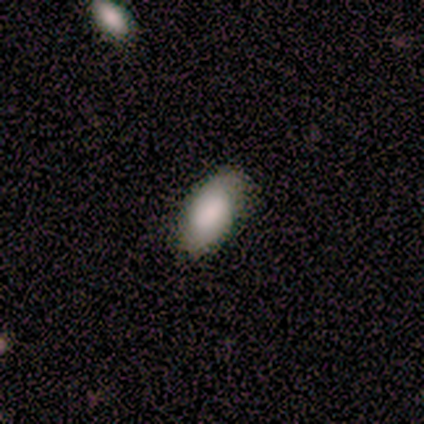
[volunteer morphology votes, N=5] Smooth or featured: smooth — 100%
How rounded: in between — 100%
Merging: none — 100%